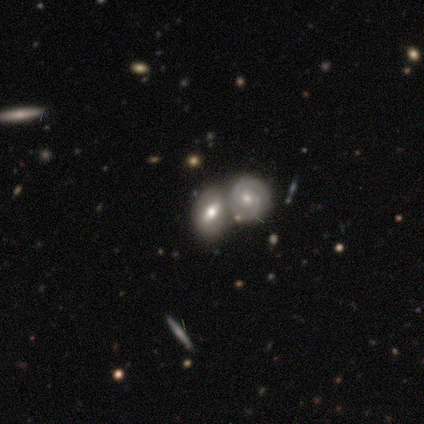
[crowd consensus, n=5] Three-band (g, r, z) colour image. It shows a featured or disk galaxy (100%) with a strong bar (60%), 2 (100%) tight (67%) spiral arms (60%) and a moderate central bulge (60%). Merging: merger (100%).